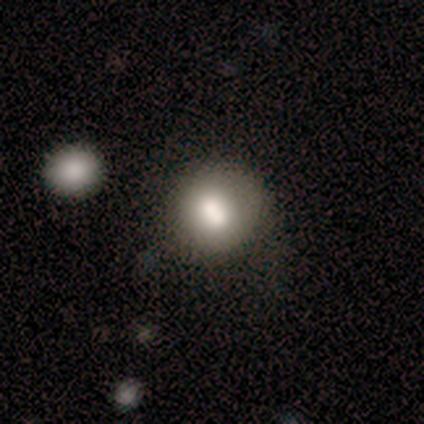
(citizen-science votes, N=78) Smooth or featured?
  - smooth: 72% *
  - featured or disk: 21%
  - star or artifact: 8%
How rounded?
  - round: 88% *
  - in between: 11%
  - cigar-shaped: 2%
Merging?
  - none: 43% *
  - merger: 21%
  - minor disturbance: 7%
  - major disturbance: 3%